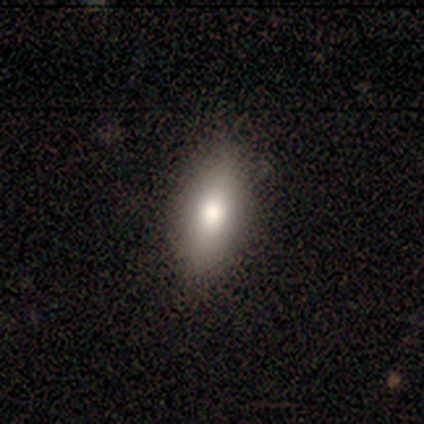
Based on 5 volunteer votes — smooth_or_featured: smooth (p=1.00)
how_rounded: in between (p=1.00)
merging: none (p=1.00)